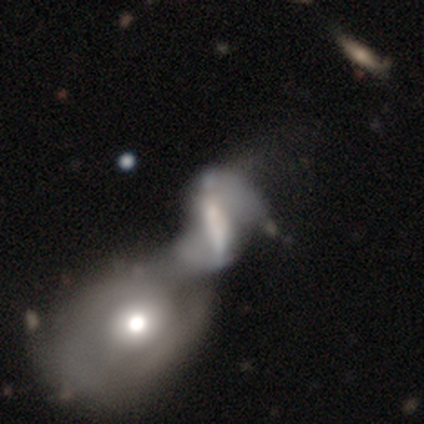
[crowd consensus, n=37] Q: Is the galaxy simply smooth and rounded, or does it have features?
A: featured or disk — 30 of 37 (81%).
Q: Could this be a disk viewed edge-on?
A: no — 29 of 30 (97%).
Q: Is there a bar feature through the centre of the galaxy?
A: strong — 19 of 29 (66%).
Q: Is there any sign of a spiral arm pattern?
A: yes — 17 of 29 (59%).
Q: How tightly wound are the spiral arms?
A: loose — 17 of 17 (100%).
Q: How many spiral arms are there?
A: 2 — 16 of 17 (94%).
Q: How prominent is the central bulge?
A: moderate — 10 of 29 (34%, tied with small).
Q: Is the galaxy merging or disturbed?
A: merger — 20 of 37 (54%).